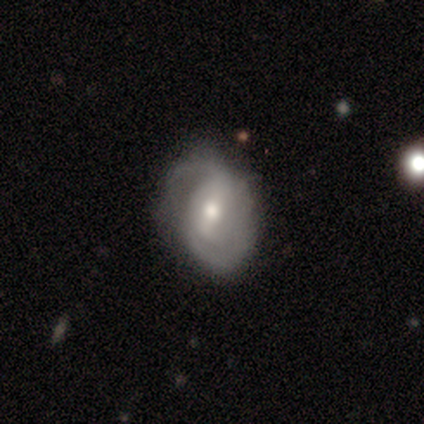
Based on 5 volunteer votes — featured or disk 60%, smooth 40%, star or artifact 0%. Down the decision tree: edge-on disk — no (100%); bar — strong (33%, tied with weak and no); spiral arms — yes (100%); spiral arm count — 2 (67%); spiral winding — tight (33%, tied with medium and loose); bulge size — small (100%); merging — none (80%).